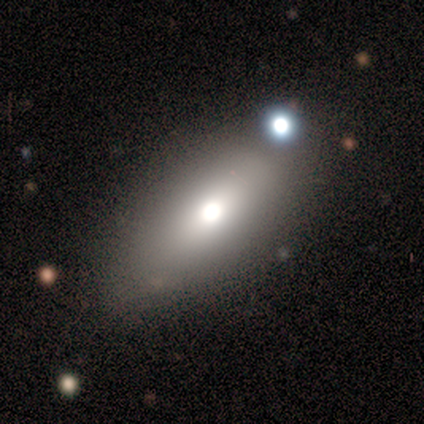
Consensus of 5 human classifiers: This appears to be a smooth galaxy with no disk features (60%) that is in between round and cigar-shaped (100%). Merging: none (100%).